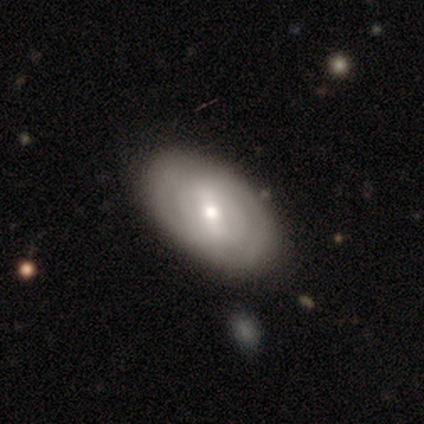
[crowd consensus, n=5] Smooth or featured? 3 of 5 (60%) said smooth. How rounded? 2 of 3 (67%) said in between. Merging? 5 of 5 (100%) said none.